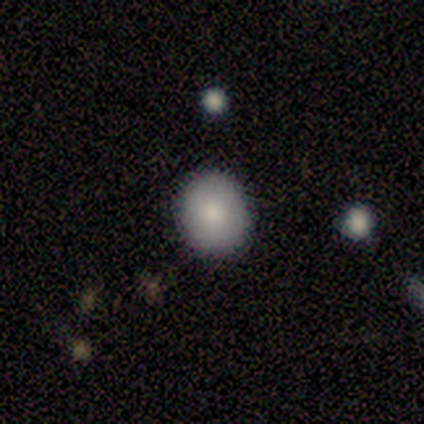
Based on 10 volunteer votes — Overall: smooth (90%). How rounded: round (78%). Merging: none (80%).